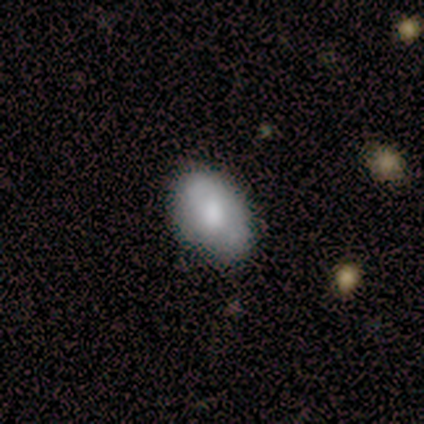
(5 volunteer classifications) smooth 40% (tied), featured or disk 40% (tied), star or artifact 20%. Down the decision tree: how rounded — in between (50%, tied with cigar-shaped); merging — none (100%).